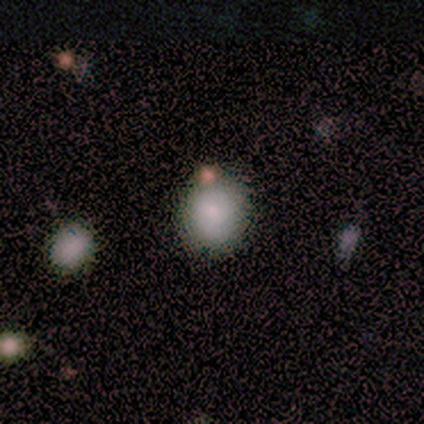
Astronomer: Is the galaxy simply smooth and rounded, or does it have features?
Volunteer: smooth — 100%.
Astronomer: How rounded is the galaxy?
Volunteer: round — 100%.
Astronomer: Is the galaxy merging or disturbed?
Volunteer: none — 75%.